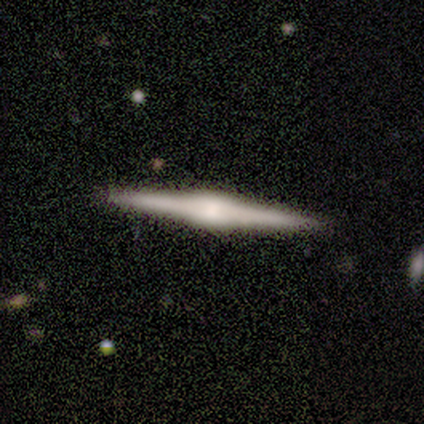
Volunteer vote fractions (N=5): smooth-or-featured: featured or disk: 80% | smooth: 20% | star or artifact: 0%
  disk-edge-on: yes: 100% | no: 0%
    edge-on-bulge: boxy: 50% (tied) | rounded: 50% (tied) | none: 0%
  merging: none: 100% | minor disturbance: 0% | major disturbance: 0% | merger: 0%